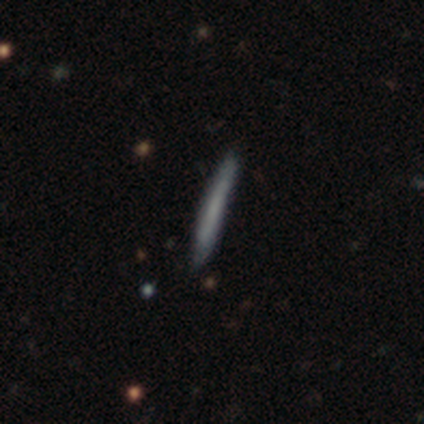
Volunteers were most divided on "smooth or featured": smooth: 80%, star or artifact: 20%, featured or disk: 0%. More confident: how rounded — cigar-shaped (100%); merging — none (100%).